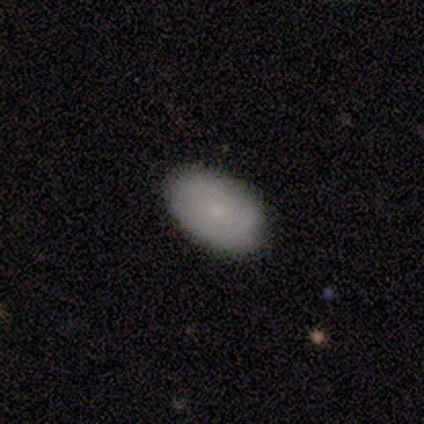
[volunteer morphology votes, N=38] A smooth galaxy with no disk features (76%) that is in between round and cigar-shaped (97%).

Vote fractions:
- Smooth or featured? smooth: 76% / featured or disk: 24% / star or artifact: 0%
- How rounded? in between: 97% / cigar-shaped: 3% / round: 0%
- Merging? none: 79% / minor disturbance: 18% / merger: 3% / major disturbance: 0%